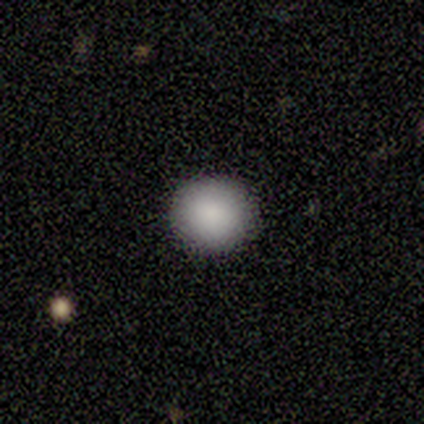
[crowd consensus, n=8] A smooth galaxy with no disk features (88%) that is round (100%). Merging: none (100%).